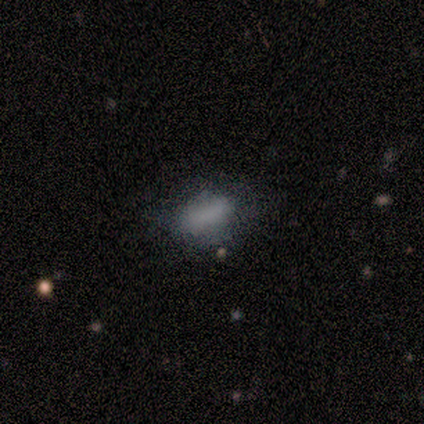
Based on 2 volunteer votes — Smooth or featured? smooth (100%)
How rounded? in between (100%)
Merging? none (100%)